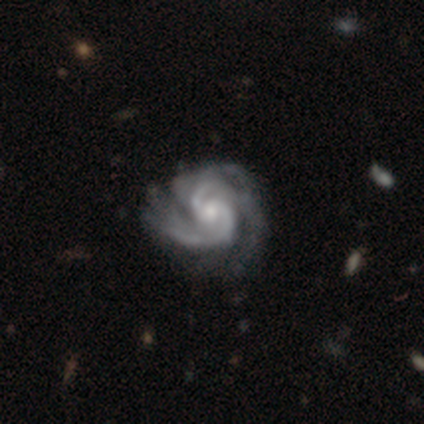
Smooth or featured? featured or disk (100%)
Edge-on disk? no (100%)
Bar? no (80%)
Spiral arms? yes (100%)
Spiral winding? tight (60%)
Spiral arm count? 2 (80%)
Bulge size? small (60%)
Merging? none (60%)